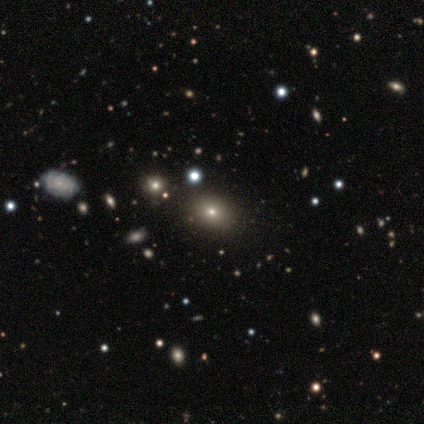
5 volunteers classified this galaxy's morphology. Volunteers were most divided on "smooth or featured" (2-way tie): smooth: 40%, featured or disk: 40%, star or artifact: 20%; "how rounded" (2-way tie): round: 50%, in between: 50%, cigar-shaped: 0%. More confident: merging — none (100%).